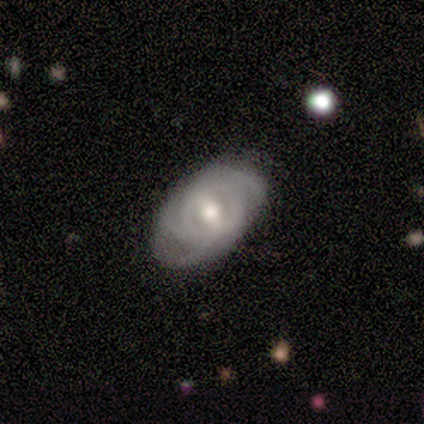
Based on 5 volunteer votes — Overall: featured or disk (100%). Edge-on disk: no (100%). Bar: strong (60%; weak 40%). Spiral arms: yes (80%). Spiral arm count: 3 (50%, tied with can't tell). Spiral winding: tight (50%, tied with medium). Bulge size: moderate (80%). Merging: minor disturbance (40%, tied with major disturbance).